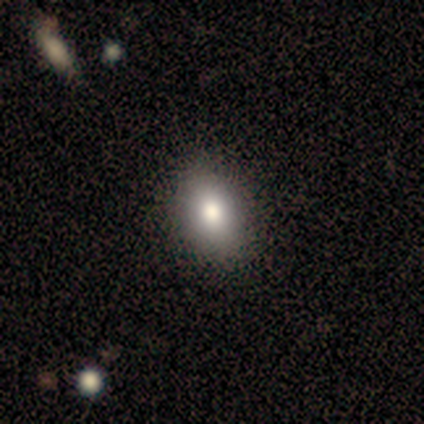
This appears to be a smooth galaxy with no disk features (100%) that is in between round and cigar-shaped (100%). Merging: none (100%).